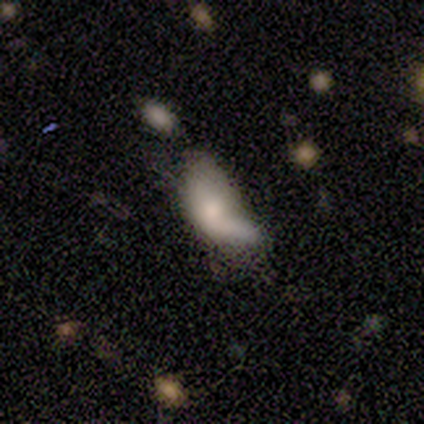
Smooth or featured? 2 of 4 (50%) said smooth. How rounded? 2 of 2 (100%) said in between. Merging? 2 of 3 (67%) said major disturbance.